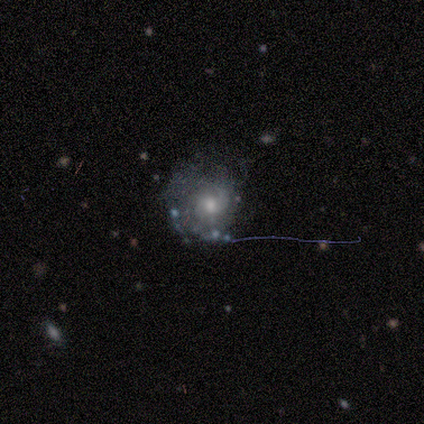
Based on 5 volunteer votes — smooth-or-featured: featured or disk: 80% | star or artifact: 20% | smooth: 0%
  disk-edge-on: no: 75% | yes: 25%
    bar: no: 67% | weak: 33% | strong: 0%
    has-spiral-arms: yes: 67% | no: 33%
      spiral-winding: medium: 50% (tied) | loose: 50% (tied) | tight: 0%
      spiral-arm-count: 1: 50% (tied) | 2: 50% (tied) | 3: 0% | 4: 0% | more than 4: 0% | can't tell: 0%
    bulge-size: small: 67% | moderate: 33% | dominant: 0% | large: 0% | none: 0%
  merging: major disturbance: 50% | none: 25% | minor disturbance: 25% | merger: 0%